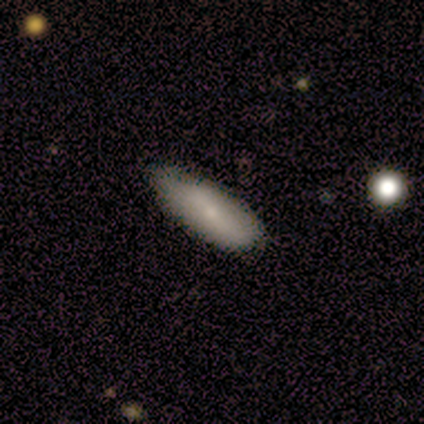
Overall: smooth (100%). How rounded: in between (80%). Merging: none (80%).